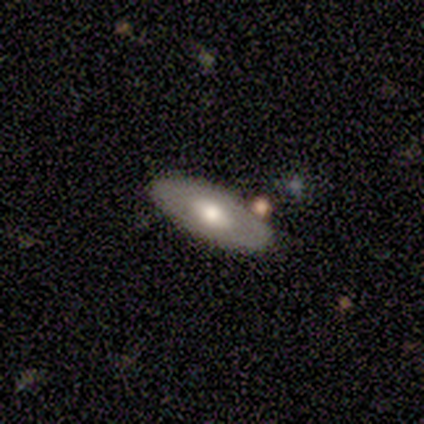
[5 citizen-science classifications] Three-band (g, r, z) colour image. It shows a smooth galaxy with no disk features (100%) that is in between round and cigar-shaped (80%). Merging: none (60%).